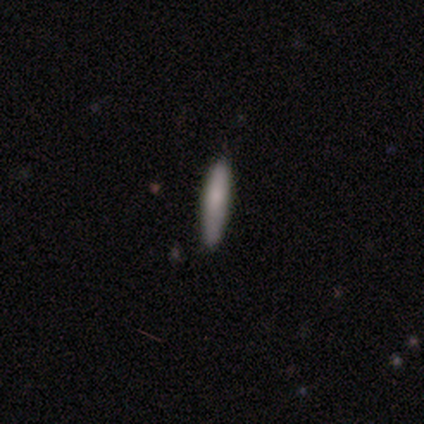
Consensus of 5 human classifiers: This appears to be a smooth galaxy with no disk features (80%) that is cigar-shaped (100%). Merging: none (80%).